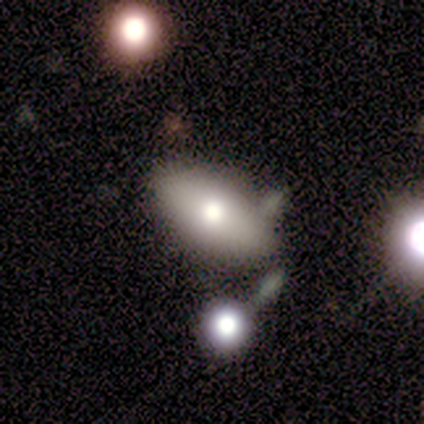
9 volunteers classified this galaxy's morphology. Smooth or featured: smooth — 67% (featured or disk — 33%)
How rounded: in between — 100%
Merging: none — 67% (minor disturbance — 11%)